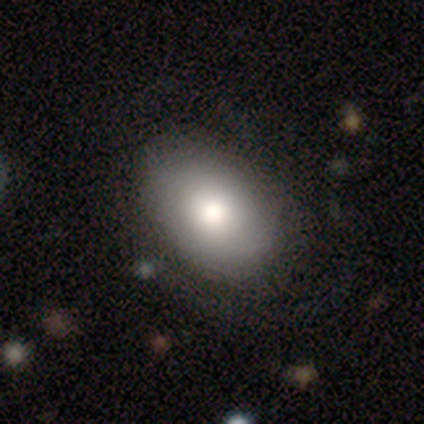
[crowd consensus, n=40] This is likely a smooth galaxy (70%). How rounded: clearly in between (86%). Merging: likely none (72%).